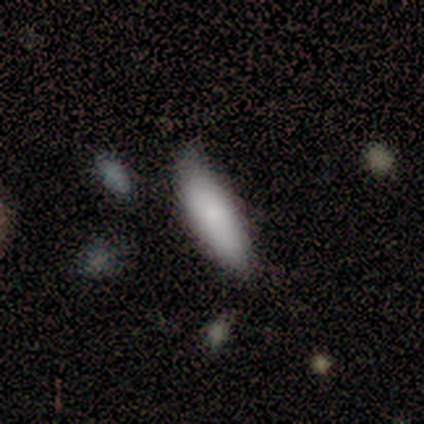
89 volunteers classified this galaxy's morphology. This is clearly a smooth galaxy (89%). How rounded: possibly cigar-shaped (51%). Merging: likely none (65%).